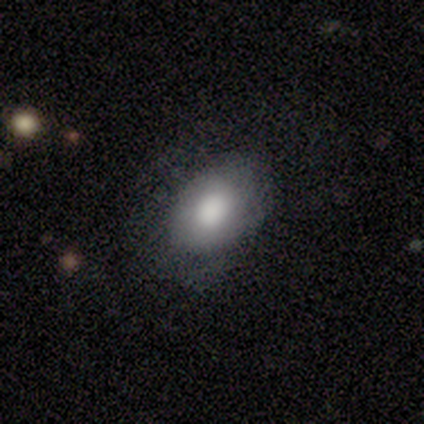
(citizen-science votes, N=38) Overall: smooth (68%; featured or disk 32%). How rounded: in between (85%). Merging: none (66%; minor disturbance 26%).